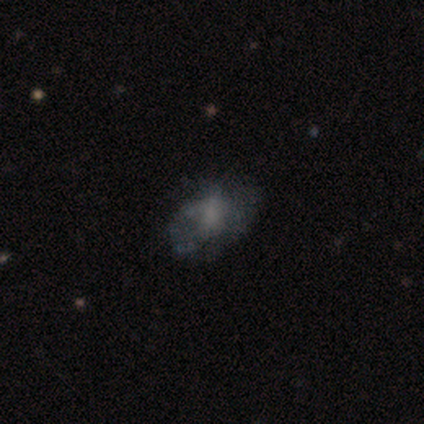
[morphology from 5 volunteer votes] Smooth or featured: featured or disk — 60% (smooth — 20%)
Edge-on disk: no — 100%
Bar: no — 100%
Spiral arms: yes — 67% (no — 33%)
Spiral winding: medium — 50% (tied with loose — 50%)
Spiral arm count: can't tell — 100%
Bulge size: none — 67% (moderate — 33%)
Merging: none — 50% (tied with major disturbance — 50%)